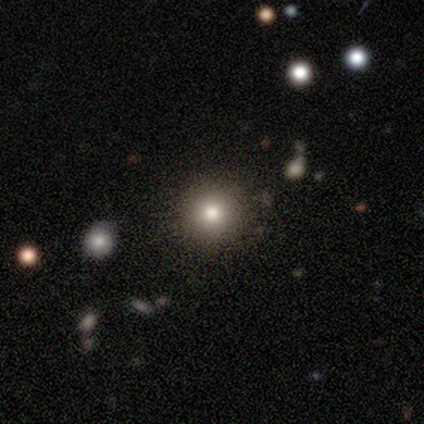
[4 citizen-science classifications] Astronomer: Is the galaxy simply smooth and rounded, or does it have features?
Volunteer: smooth — 75%.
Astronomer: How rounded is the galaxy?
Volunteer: round — 100%.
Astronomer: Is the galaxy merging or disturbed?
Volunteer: none — 100%.